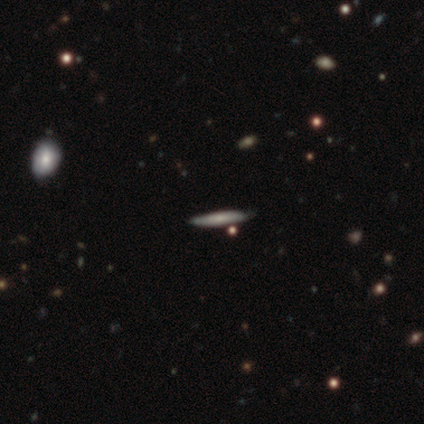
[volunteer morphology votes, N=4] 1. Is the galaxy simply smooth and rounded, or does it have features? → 50% smooth (tied), 50% featured or disk (tied), 0% star or artifact.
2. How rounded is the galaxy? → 100% cigar-shaped, 0% round, 0% in between.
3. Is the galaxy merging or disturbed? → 100% none, 0% minor disturbance, 0% major disturbance, 0% merger.